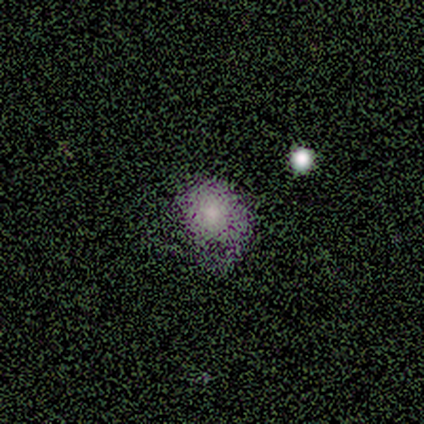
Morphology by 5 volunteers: Smooth or featured: star or artifact — 60% (smooth — 40%)